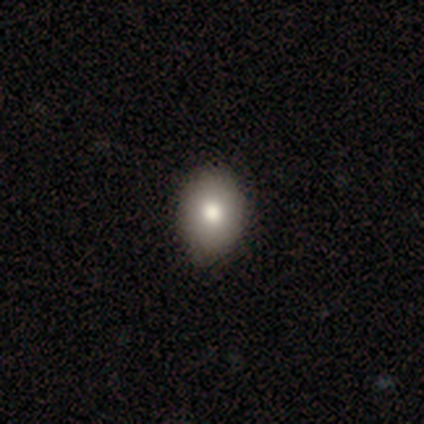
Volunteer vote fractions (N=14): Smooth or featured? 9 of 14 (64%) said smooth. How rounded? 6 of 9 (67%) said in between. Merging? 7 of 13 (54%) said none.